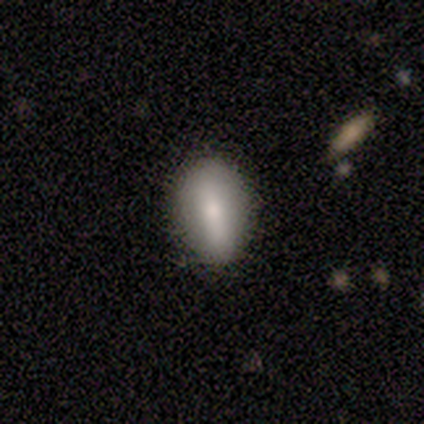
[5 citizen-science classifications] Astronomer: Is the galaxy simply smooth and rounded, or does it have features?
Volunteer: smooth — 80%.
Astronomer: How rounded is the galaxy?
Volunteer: in between — 75%.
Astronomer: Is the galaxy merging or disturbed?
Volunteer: none — 100%.